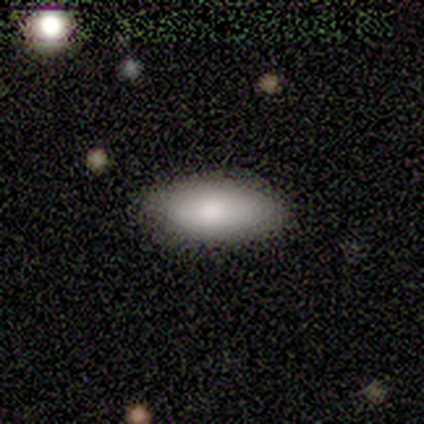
Smooth or featured? 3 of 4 (75%) said smooth. How rounded? 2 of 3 (67%) said in between. Merging? 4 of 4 (100%) said none.